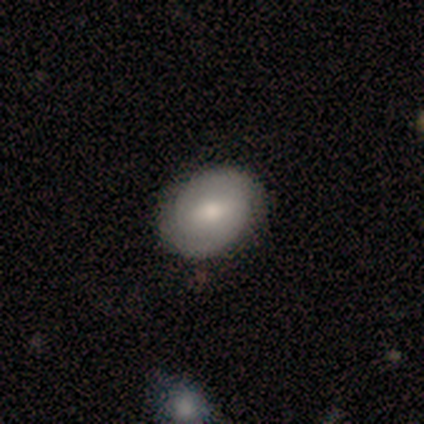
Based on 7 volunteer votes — smooth_or_featured: smooth (p=0.43) [tied with: featured or disk p=0.43]
how_rounded: round (p=0.67) [alt: in between p=0.33]
merging: none (p=0.83) [alt: major disturbance p=0.17]